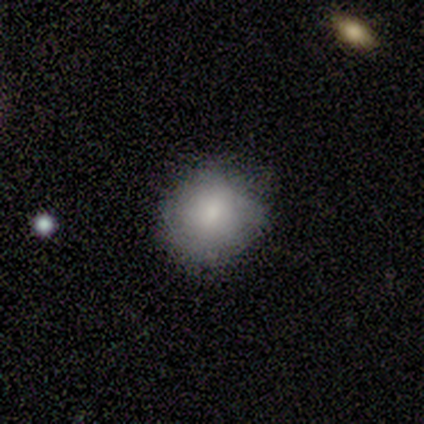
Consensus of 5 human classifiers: Overall: smooth (60%; featured or disk 20%). How rounded: round (100%). Merging: minor disturbance (75%).